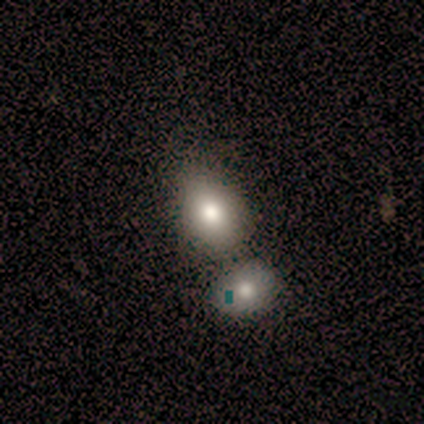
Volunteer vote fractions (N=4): smooth-or-featured: smooth: 75% | star or artifact: 25% | featured or disk: 0%
  how-rounded: round: 67% | in between: 33% | cigar-shaped: 0%
  merging: none: 33% (tied) | minor disturbance: 33% (tied) | merger: 33% (tied) | major disturbance: 0%